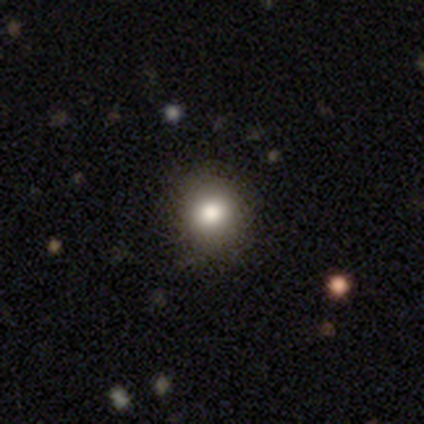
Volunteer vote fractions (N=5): Smooth or featured?
  - smooth: 60% *
  - featured or disk: 40%
  - star or artifact: 0%
How rounded?
  - round: 100% *
  - in between: 0%
  - cigar-shaped: 0%
Merging?
  - none: 100% *
  - minor disturbance: 0%
  - major disturbance: 0%
  - merger: 0%